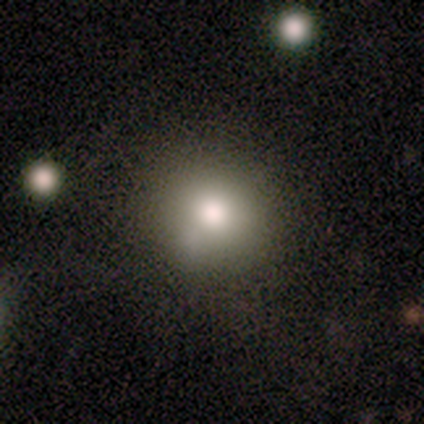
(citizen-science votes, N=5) smooth_or_featured: smooth (p=0.80) [alt: featured or disk p=0.20]
how_rounded: round (p=0.75) [alt: in between p=0.25]
merging: none (p=0.80) [alt: minor disturbance p=0.20]